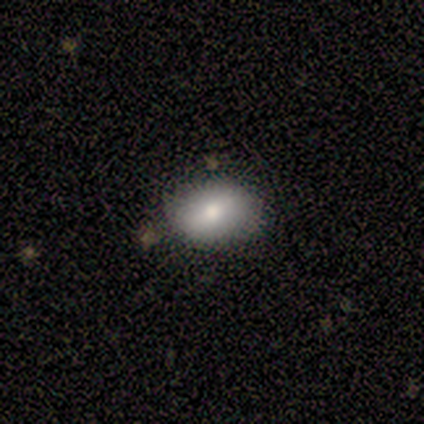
Morphology: type=smooth (50%); roundness=round (50%, tied with in between); merging=none (67%).